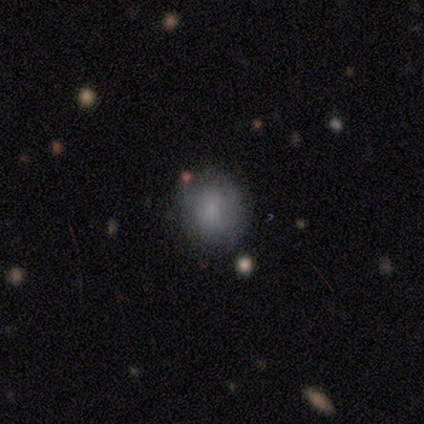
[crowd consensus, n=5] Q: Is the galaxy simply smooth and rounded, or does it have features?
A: smooth — 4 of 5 (80%).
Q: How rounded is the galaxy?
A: round — 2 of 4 (50%, tied with in between).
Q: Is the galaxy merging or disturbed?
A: none — 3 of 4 (75%).